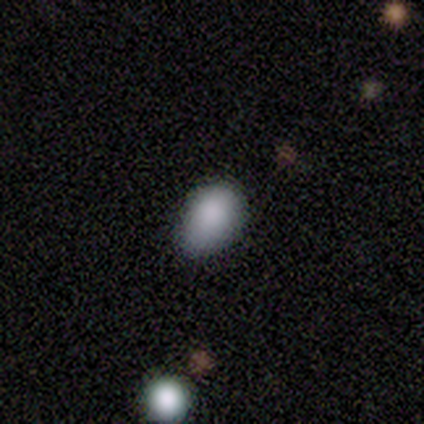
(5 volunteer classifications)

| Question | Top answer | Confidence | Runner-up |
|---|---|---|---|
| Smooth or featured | smooth | 80% | star or artifact (20%) |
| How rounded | in between | 100% | — |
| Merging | minor disturbance | 75% | none (25%) |